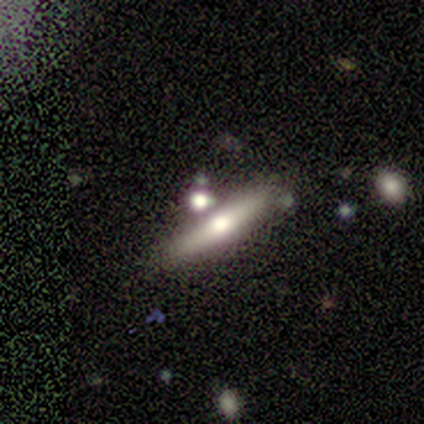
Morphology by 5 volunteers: Smooth or featured? smooth (60%)
How rounded? cigar-shaped (67%)
Merging? none (80%)